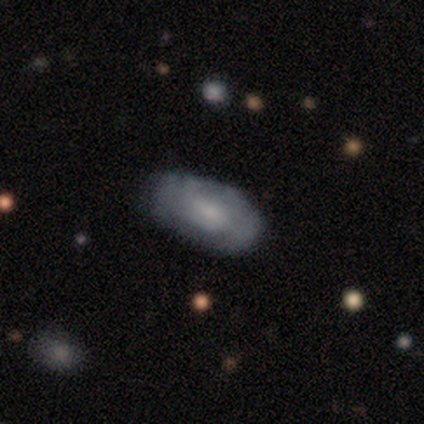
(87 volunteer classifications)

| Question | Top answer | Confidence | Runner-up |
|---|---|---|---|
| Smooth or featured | smooth | 54% | featured or disk (41%) |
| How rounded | in between | 98% | round (2%) |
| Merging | none | 71% | minor disturbance (23%) |